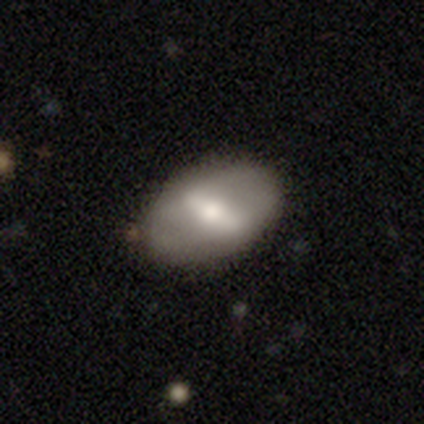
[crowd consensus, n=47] This is likely a smooth galaxy (62%). How rounded: clearly in between (93%). Merging: clearly none (85%).